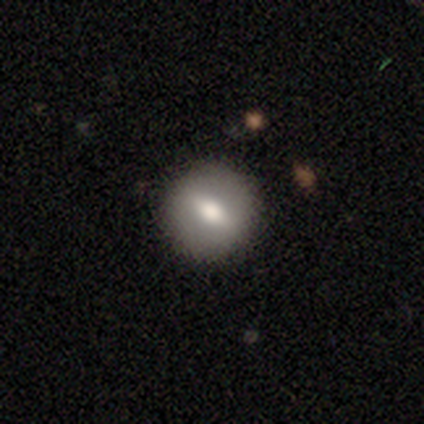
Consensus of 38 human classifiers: Q: Smooth or featured?
A: smooth (61%); runner-up: featured or disk (26%)
Q: How rounded?
A: round (83%); runner-up: cigar-shaped (13%)
Q: Merging?
A: none (91%); runner-up: minor disturbance (3%)